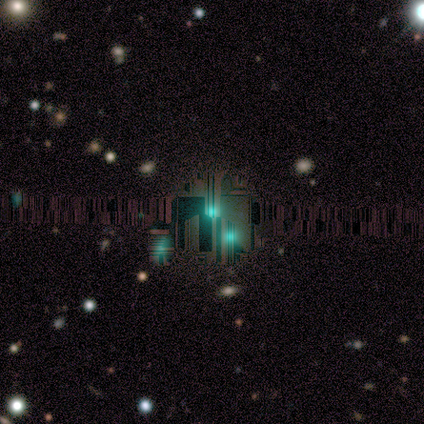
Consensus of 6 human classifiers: Smooth or featured? star or artifact (100%)